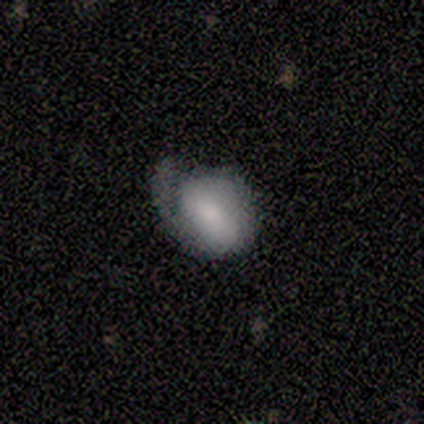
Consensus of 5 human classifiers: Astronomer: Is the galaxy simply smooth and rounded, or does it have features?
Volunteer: featured or disk — 60% (runner-up: smooth, 40%).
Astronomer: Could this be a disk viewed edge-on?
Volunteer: no — 100%.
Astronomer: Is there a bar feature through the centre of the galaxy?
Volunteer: weak — 67%.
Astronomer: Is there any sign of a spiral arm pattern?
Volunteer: yes — 67%.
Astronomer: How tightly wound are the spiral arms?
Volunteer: tight — 50%, tied with medium at 50%.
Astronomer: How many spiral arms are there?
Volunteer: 1 — 50%, tied with 2 at 50%.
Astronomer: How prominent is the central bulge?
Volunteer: small — 67%.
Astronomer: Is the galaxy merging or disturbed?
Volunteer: major disturbance — 60%.